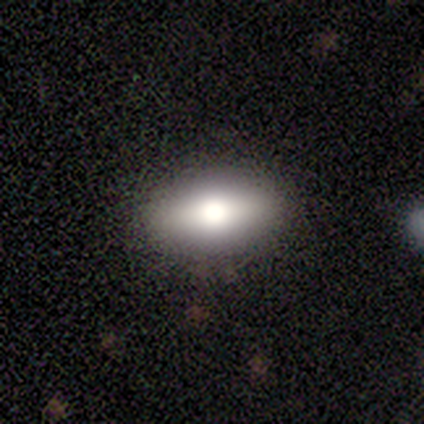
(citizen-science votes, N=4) featured or disk 50%, smooth 25%, star or artifact 25%. Down the decision tree: edge-on disk — yes (100%); edge-on bulge — rounded (100%); merging — none (100%).